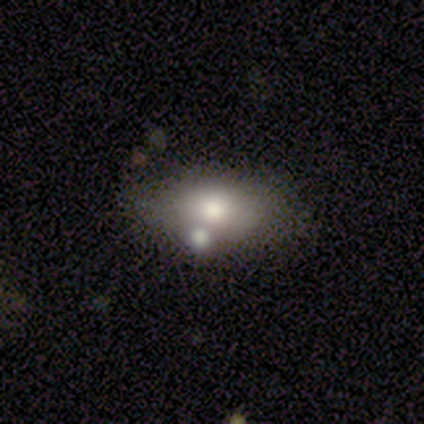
This is likely a smooth galaxy (60%). How rounded: clearly in between (100%). Merging: clearly none (80%).